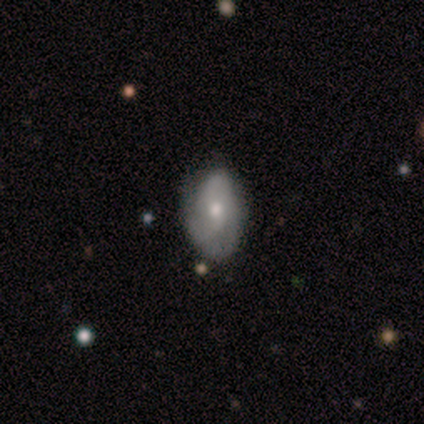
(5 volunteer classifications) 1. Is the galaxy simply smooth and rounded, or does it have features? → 100% featured or disk, 0% smooth, 0% star or artifact.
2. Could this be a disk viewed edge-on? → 100% no, 0% yes.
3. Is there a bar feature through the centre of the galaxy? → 60% weak, 40% no, 0% strong.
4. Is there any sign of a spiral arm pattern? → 100% yes, 0% no.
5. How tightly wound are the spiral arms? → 60% tight, 40% loose, 0% medium.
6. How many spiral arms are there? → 60% 2, 20% 1, 20% 3, 0% 4, 0% more than 4, 0% can't tell.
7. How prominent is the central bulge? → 60% moderate, 40% small, 0% dominant, 0% large, 0% none.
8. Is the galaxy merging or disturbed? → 80% none, 20% minor disturbance, 0% major disturbance, 0% merger.